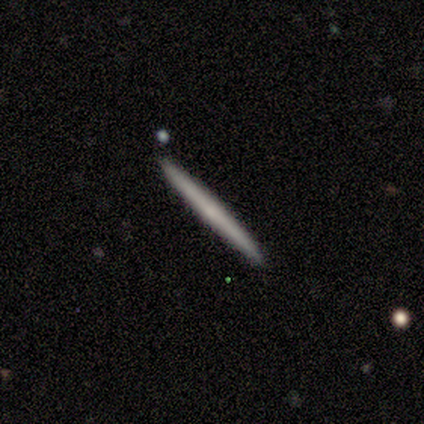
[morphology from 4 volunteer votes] Smooth or featured?
  - smooth: 50% * (tied)
  - featured or disk: 50% * (tied)
  - star or artifact: 0%
How rounded?
  - cigar-shaped: 100% *
  - round: 0%
  - in between: 0%
Merging?
  - none: 100% *
  - minor disturbance: 0%
  - major disturbance: 0%
  - merger: 0%